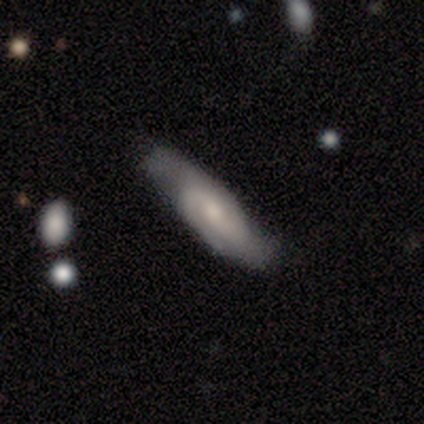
Volunteers were most divided on "spiral winding": tight: 45%, medium: 36%, loose: 18%. More confident: spiral arms — yes (96%); edge-on disk — no (92%); merging — none (74%); spiral arm count — 2 (68%); smooth or featured — featured or disk (64%); bar — no (57%); bulge size — small (57%).